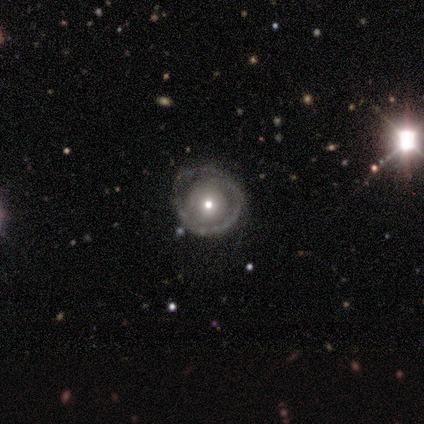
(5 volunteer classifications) Smooth or featured? featured or disk (60%)
Edge-on disk? no (100%)
Bar? no (100%)
Spiral arms? no (100%)
Bulge size? moderate (67%)
Merging? none (75%)